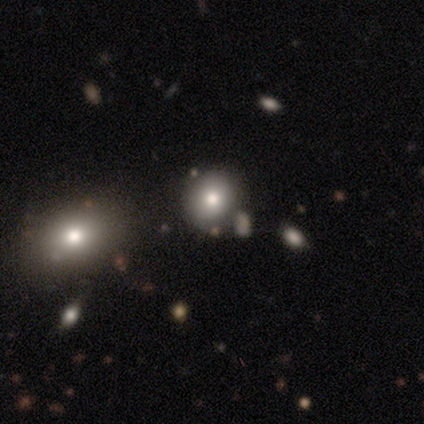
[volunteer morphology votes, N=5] type=smooth (40%, tied with star or artifact); roundness=round (100%); merging=none (67%).